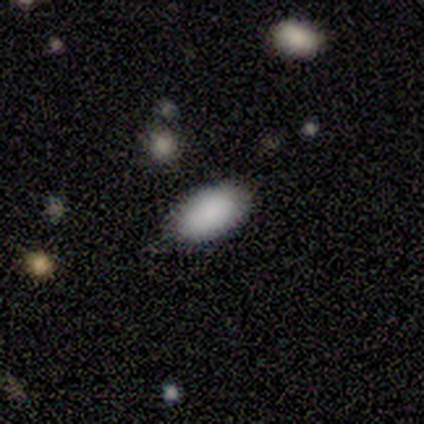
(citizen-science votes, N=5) smooth_or_featured: smooth (p=1.00)
how_rounded: in between (p=0.80) [alt: round p=0.20]
merging: none (p=1.00)